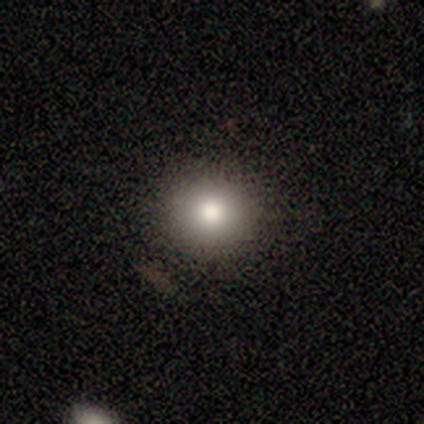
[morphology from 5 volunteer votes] Smooth or featured? smooth (80%)
How rounded? round (100%)
Merging? none (100%)